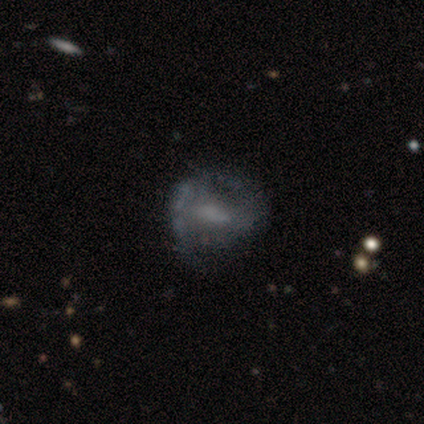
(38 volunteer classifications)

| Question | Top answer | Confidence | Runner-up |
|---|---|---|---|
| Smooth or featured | featured or disk | 68% | smooth (24%) |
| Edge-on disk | no | 96% | yes (4%) |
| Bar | weak | 40% | no (36%) |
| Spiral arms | yes | 56% | no (44%) |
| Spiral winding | medium | 64% | loose (21%) |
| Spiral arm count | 2 | 71% | can't tell (21%) |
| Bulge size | none | 52% | small (28%) |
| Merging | none | 29% | major disturbance (23%) |